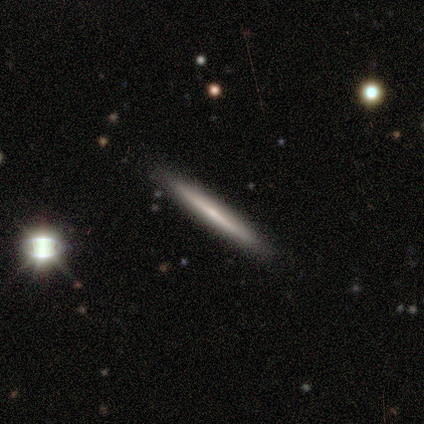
Morphology: type=featured or disk (80%); edge-on=yes (100%); edge-on bulge=none (75%); merging=none (100%).